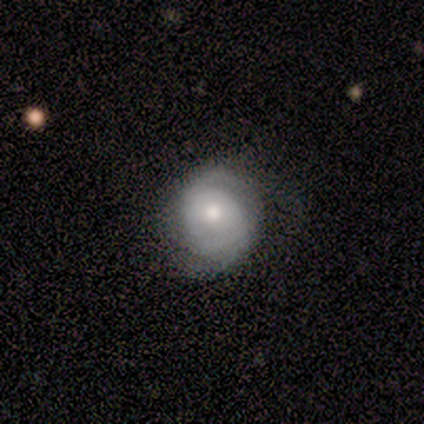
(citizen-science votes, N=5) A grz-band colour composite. It shows a featured or disk galaxy (60%) with no bar (100%), tight (100%) spiral arms (100%) and a large central bulge (33%, tied with moderate and small). Merging: none (60%).